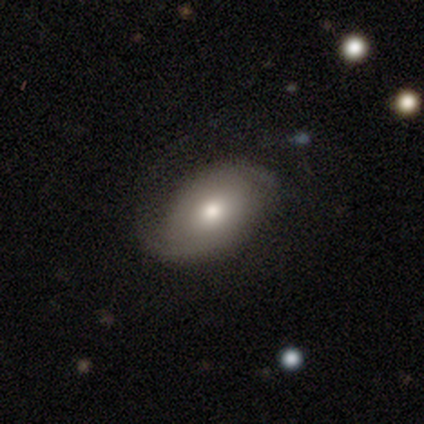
This appears to be a featured or disk galaxy (60%) with no bar (67%), 2 (100%) loose (100%) spiral arms (100%) and a moderate central bulge (67%). Merging: none (60%).